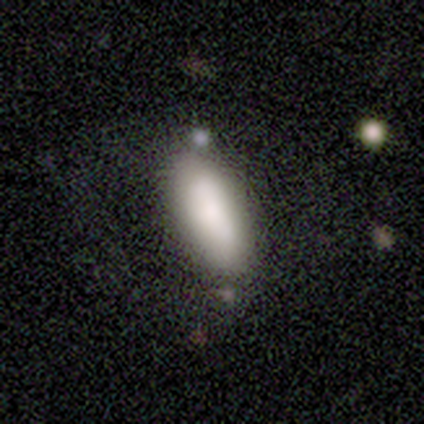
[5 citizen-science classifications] Volunteers were most divided on "merging" (2-way tie): minor disturbance: 40%, major disturbance: 40%, none: 20%, merger: 0%. More confident: smooth or featured — smooth (80%); how rounded — in between (75%).